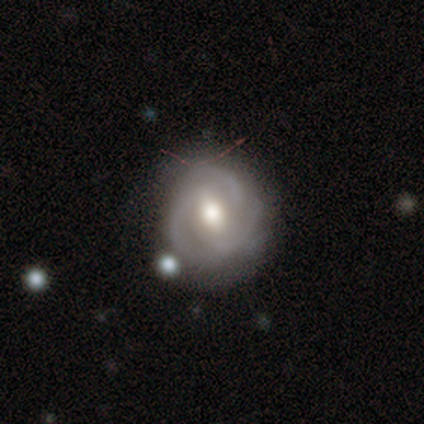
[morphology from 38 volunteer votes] type=featured or disk (84%); edge-on=no (100%); bar=weak (47%); spiral arms=yes (91%); winding=tight (48%, tied with medium); arm count=3 (62%); bulge=moderate (81%); merging=none (69%).